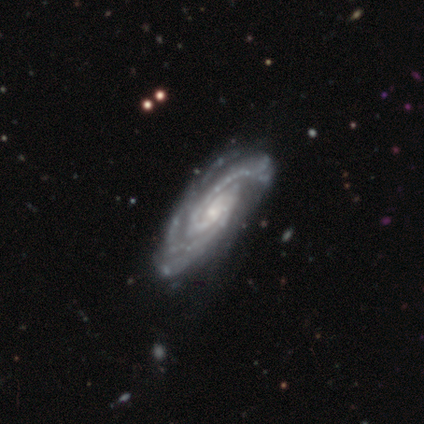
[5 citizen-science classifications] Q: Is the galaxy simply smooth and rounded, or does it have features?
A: featured or disk — 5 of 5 (100%).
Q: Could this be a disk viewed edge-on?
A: no — 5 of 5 (100%).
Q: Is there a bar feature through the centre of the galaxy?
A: no — 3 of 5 (60%).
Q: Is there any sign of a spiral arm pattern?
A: yes — 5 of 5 (100%).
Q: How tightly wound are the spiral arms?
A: tight — 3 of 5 (60%).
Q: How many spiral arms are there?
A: can't tell — 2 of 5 (40%).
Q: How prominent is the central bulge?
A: small — 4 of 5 (80%).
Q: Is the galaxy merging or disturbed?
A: none — 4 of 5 (80%).